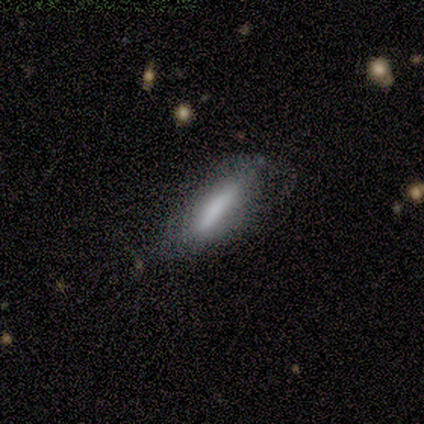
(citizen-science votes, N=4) Q: Smooth or featured?
A: smooth (75%); runner-up: star or artifact (25%)
Q: How rounded?
A: in between (67%); runner-up: cigar-shaped (33%)
Q: Merging?
A: none (100%)